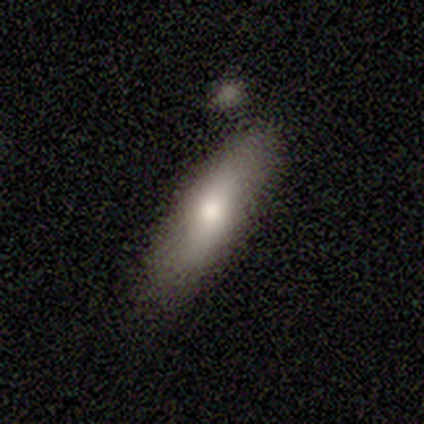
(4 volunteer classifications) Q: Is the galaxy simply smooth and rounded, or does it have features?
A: smooth — 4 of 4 (100%).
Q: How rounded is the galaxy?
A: cigar-shaped — 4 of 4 (100%).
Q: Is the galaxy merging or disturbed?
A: minor disturbance — 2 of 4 (50%, tied with major disturbance).